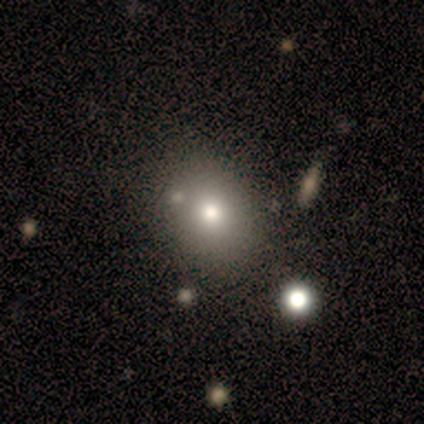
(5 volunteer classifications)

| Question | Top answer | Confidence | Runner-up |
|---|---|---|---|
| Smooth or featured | smooth | 80% | star or artifact (20%) |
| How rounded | round | 50% | tied: in between (50%) |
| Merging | none | 75% | minor disturbance (25%) |